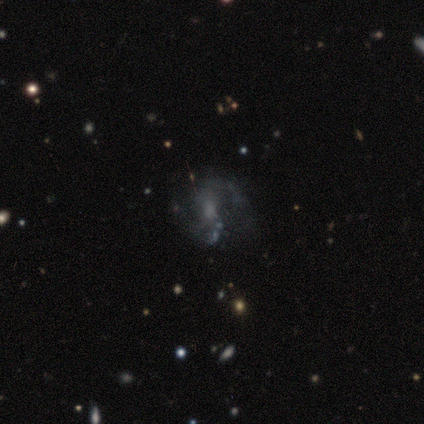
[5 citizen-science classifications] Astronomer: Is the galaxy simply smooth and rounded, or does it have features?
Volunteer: featured or disk — 80%.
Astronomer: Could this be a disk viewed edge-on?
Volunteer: no — 100%.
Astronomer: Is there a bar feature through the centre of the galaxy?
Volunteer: no — 75%.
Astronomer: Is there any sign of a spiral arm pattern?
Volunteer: yes — 75%.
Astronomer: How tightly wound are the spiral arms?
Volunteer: loose — 67%.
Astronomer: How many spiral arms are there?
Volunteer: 2 — 100%.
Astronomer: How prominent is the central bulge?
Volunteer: small — 50%.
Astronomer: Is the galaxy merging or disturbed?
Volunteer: none — 60%.